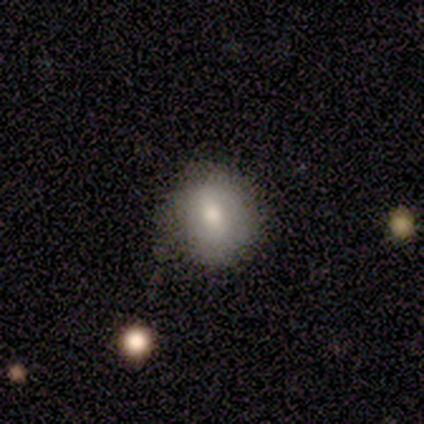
A smooth galaxy with no disk features (80%) that is round (100%). Merging: none (80%).